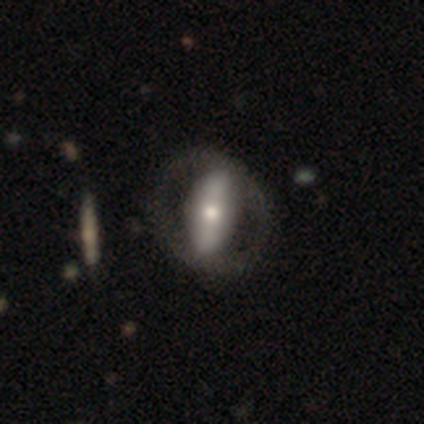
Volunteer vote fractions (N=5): featured or disk 60%, smooth 20%, star or artifact 20%. Down the decision tree: edge-on disk — no (100%); bar — strong (100%); spiral arms — no (100%); bulge size — moderate (100%); merging — none (50%).